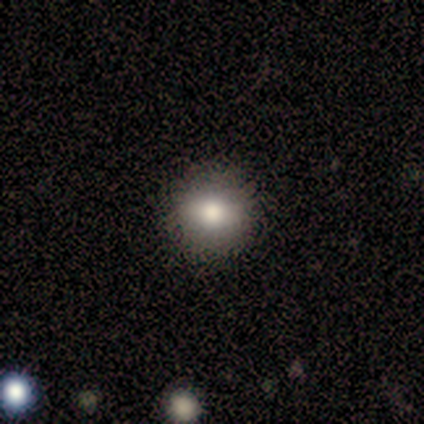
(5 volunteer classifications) Volunteers were most divided on "merging": none: 60%, minor disturbance: 40%, major disturbance: 0%, merger: 0%. More confident: how rounded — round (100%); smooth or featured — smooth (80%).